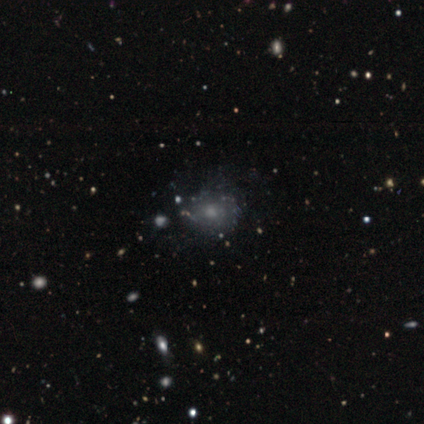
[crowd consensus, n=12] This appears to be a featured or disk galaxy (42%) with no bar (100%), no spiral arms (60%) and a moderate central bulge (60%). Merging: major disturbance (56%).